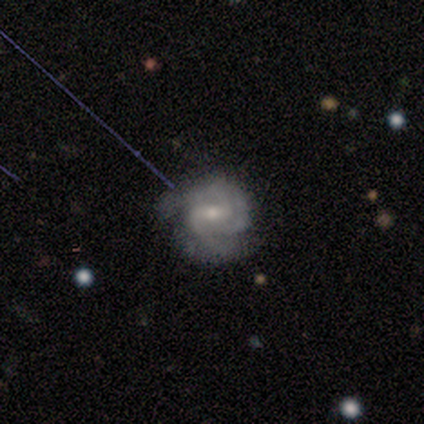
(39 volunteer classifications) Volunteers were most divided on "bulge size": small: 63%, moderate: 37%, dominant: 0%, large: 0%, none: 0%. More confident: edge-on disk — no (100%); spiral arms — yes (100%); smooth or featured — featured or disk (90%); merging — none (70%); spiral arm count — 2 (69%); bar — weak (66%); spiral winding — tight (60%).